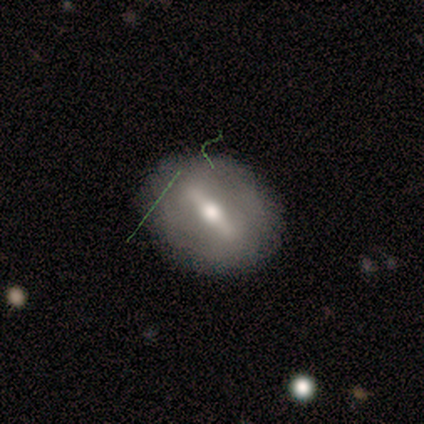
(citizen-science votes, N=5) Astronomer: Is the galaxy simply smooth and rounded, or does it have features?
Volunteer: featured or disk — 80%.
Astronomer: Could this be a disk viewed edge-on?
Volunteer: no — 75%.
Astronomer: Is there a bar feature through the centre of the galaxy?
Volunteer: strong — 67%.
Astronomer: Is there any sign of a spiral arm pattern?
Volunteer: no — 67%.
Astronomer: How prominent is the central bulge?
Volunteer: moderate — 100%.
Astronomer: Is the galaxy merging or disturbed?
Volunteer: none — 80%.